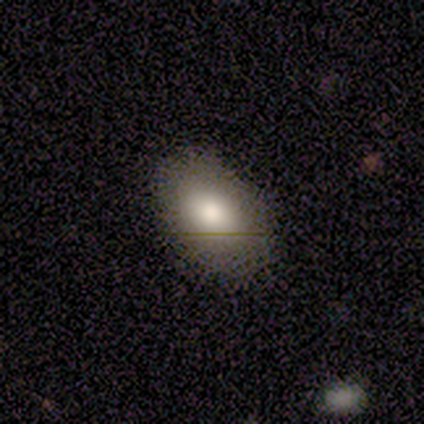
A smooth galaxy with no disk features (80%) that is in between round and cigar-shaped (100%). Merging: none (50%).